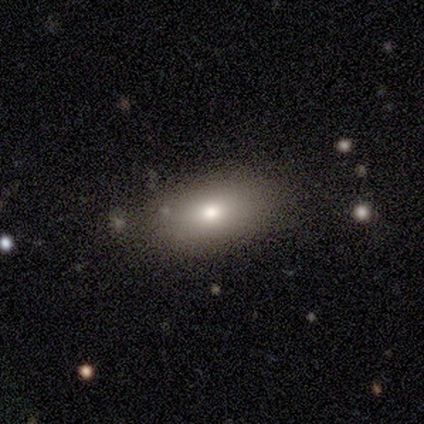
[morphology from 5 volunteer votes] This appears to be a smooth galaxy with no disk features (100%) that is in between round and cigar-shaped (100%). Merging: none (80%).